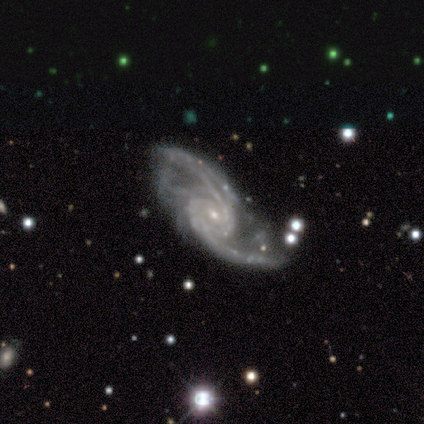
smooth-or-featured: featured or disk: 100% | smooth: 0% | star or artifact: 0%
  disk-edge-on: no: 100% | yes: 0%
    bar: no: 62% | weak: 25% | strong: 12%
    has-spiral-arms: yes: 100% | no: 0%
      spiral-winding: medium: 75% | loose: 25% | tight: 0%
      spiral-arm-count: 2: 75% | 1: 12% | more than 4: 12% | 3: 0% | 4: 0% | can't tell: 0%
    bulge-size: small: 88% | moderate: 12% | dominant: 0% | large: 0% | none: 0%
  merging: none: 38% (tied) | major disturbance: 38% (tied) | minor disturbance: 25% | merger: 0%